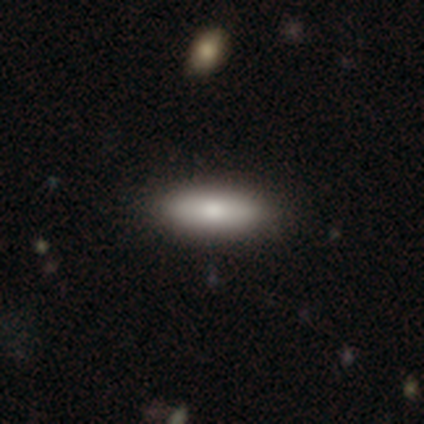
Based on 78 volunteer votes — Overall: smooth (87%). How rounded: in between (59%; cigar-shaped 40%). Merging: none (45%).